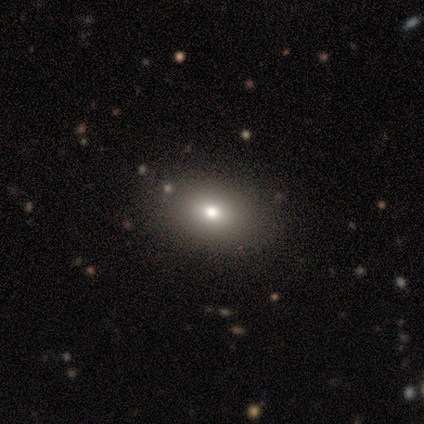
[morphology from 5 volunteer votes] Q: Smooth or featured?
A: smooth (80%); runner-up: featured or disk (20%)
Q: How rounded?
A: in between (100%)
Q: Merging?
A: none (80%); runner-up: minor disturbance (20%)